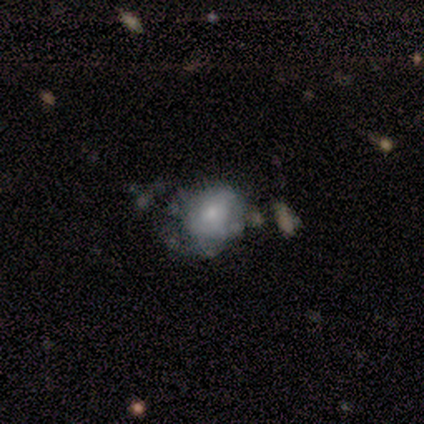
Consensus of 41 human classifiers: Smooth or featured? 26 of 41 (63%) said featured or disk. Edge-on disk? 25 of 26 (96%) said no. Bar? 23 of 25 (92%) said no. Spiral arms? 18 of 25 (72%) said no. Bulge size? 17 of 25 (68%) said small. Merging? 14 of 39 (36%) said none.